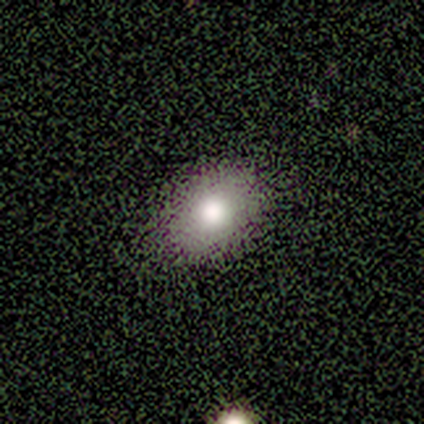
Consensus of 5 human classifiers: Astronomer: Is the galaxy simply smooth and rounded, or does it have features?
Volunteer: smooth — 80%.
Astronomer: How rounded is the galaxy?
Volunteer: in between — 100%.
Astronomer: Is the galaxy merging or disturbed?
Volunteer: none — 100%.